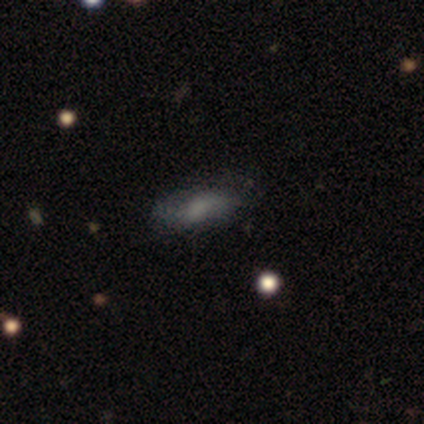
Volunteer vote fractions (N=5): Overall: smooth (60%; featured or disk 20%). How rounded: in between (67%; cigar-shaped 33%). Merging: none (50%, tied with major disturbance).